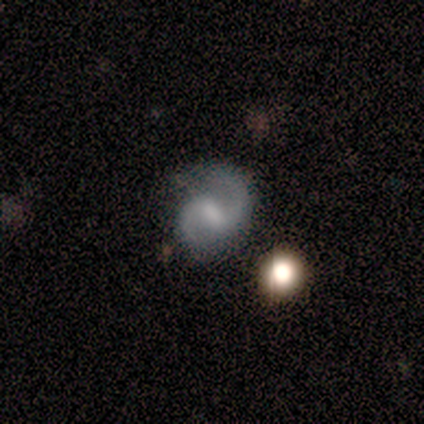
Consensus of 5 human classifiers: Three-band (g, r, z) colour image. It shows a featured or disk galaxy (100%) with a weak bar (60%), 2 (100%) medium (40%, tied with loose) spiral arms (100%) and a moderate central bulge (40%, tied with none). Merging: none (100%).